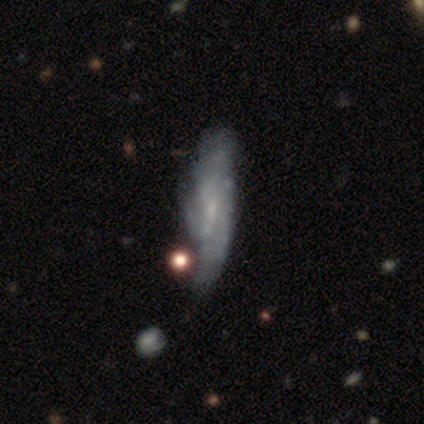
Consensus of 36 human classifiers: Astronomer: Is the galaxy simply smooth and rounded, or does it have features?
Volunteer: featured or disk — 64%.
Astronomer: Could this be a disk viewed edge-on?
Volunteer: no — 87%.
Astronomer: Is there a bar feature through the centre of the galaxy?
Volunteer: no — 55% (runner-up: weak, 40%).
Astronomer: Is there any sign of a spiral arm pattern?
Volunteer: yes — 60% (runner-up: no, 40%).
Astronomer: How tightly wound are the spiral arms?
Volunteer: tight — 50% (runner-up: loose, 33%).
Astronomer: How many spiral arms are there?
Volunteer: can't tell — 42% (runner-up: 2, 33%).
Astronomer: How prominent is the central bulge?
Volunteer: small — 55%.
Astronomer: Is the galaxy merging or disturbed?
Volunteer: major disturbance — 26% (runner-up: none, 24%).